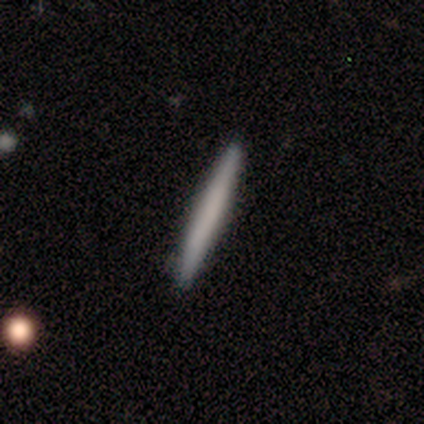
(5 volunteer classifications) Morphology: type=smooth (80%); roundness=cigar-shaped (100%); merging=none (100%).